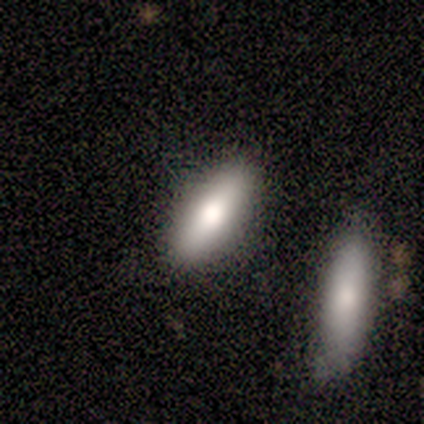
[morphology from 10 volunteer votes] This appears to be a smooth galaxy with no disk features (60%) that is in between round and cigar-shaped (50%, tied with cigar-shaped). Merging: none (80%).